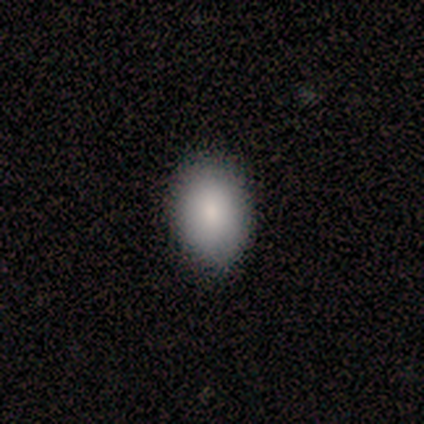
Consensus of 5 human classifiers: smooth 80%, featured or disk 20%, star or artifact 0%. Down the decision tree: how rounded — in between (100%); merging — none (80%).